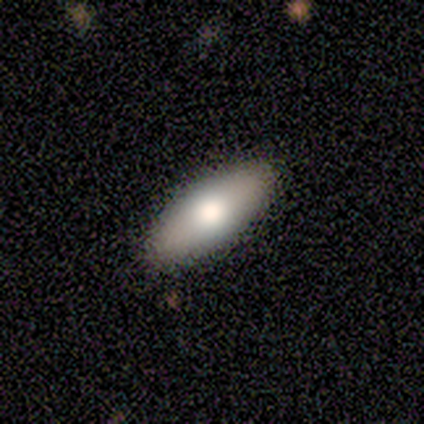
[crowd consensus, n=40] smooth_or_featured: smooth (p=0.80) [alt: featured or disk p=0.20]
how_rounded: in between (p=0.72) [alt: cigar-shaped p=0.28]
merging: none (p=0.70) [alt: minor disturbance p=0.03]